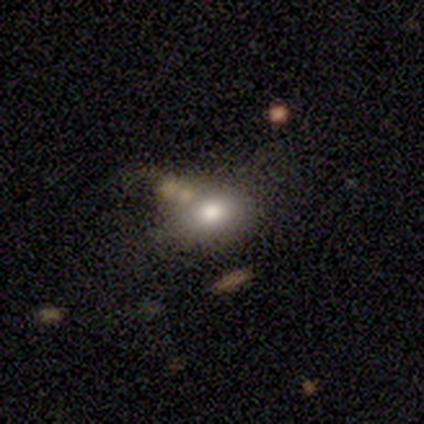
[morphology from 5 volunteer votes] smooth_or_featured: smooth (p=1.00)
how_rounded: in between (p=1.00)
merging: none (p=0.60) [alt: major disturbance p=0.20]